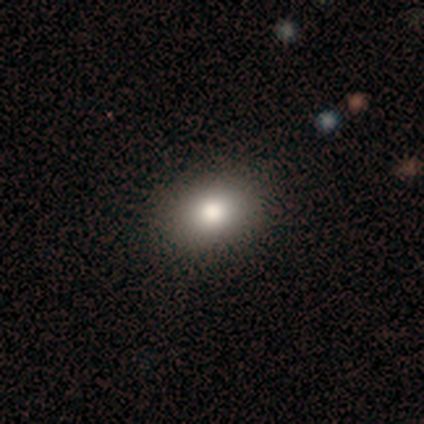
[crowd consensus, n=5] Smooth or featured?
  - smooth: 60% *
  - featured or disk: 20%
  - star or artifact: 20%
How rounded?
  - in between: 67% *
  - round: 33%
  - cigar-shaped: 0%
Merging?
  - none: 100% *
  - minor disturbance: 0%
  - major disturbance: 0%
  - merger: 0%